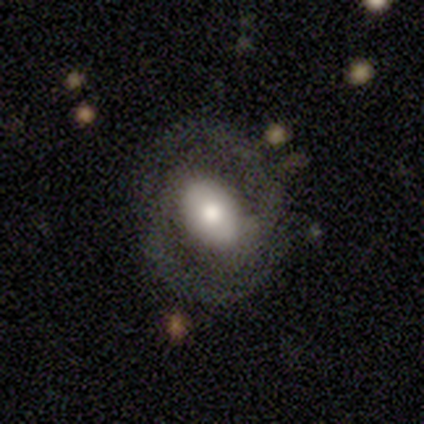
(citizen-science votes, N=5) featured or disk 100%, smooth 0%, star or artifact 0%. Down the decision tree: edge-on disk — no (100%); bar — strong (40%, tied with weak); spiral arms — yes (100%); spiral arm count — 2 (100%); spiral winding — tight (60%); bulge size — large (40%, tied with moderate); merging — none (100%).